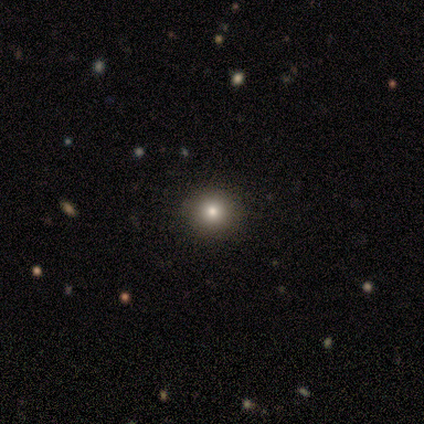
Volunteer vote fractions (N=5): Overall: smooth (60%; featured or disk 20%). How rounded: round (100%). Merging: none (100%).